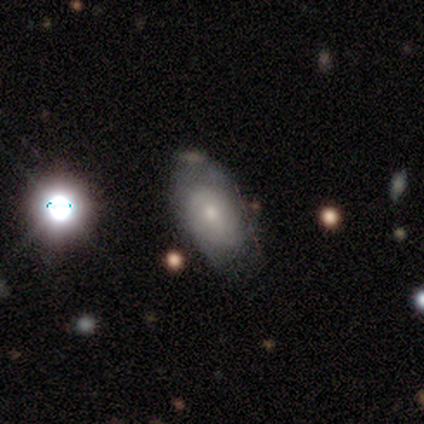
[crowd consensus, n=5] smooth 60%, featured or disk 20%, star or artifact 20%. Down the decision tree: how rounded — in between (100%); merging — minor disturbance (50%).